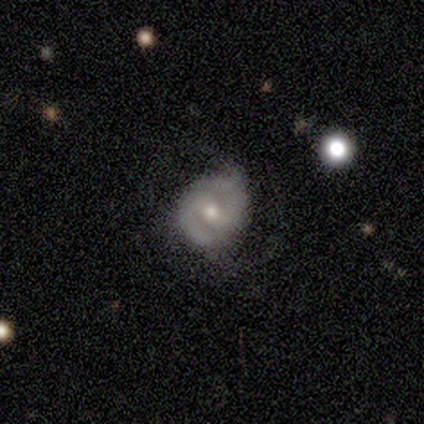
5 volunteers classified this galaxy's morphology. Volunteers were most divided on "smooth or featured": featured or disk: 60%, smooth: 40%, star or artifact: 0%. More confident: edge-on disk — no (100%); spiral arms — yes (100%); bulge size — moderate (100%); bar — no (67%); spiral winding — medium (67%); spiral arm count — 2 (67%); merging — none (60%).